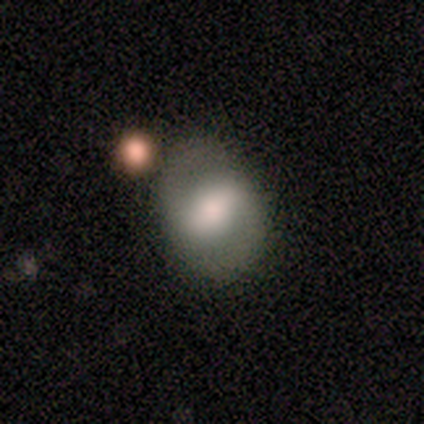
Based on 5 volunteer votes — Smooth or featured?
  - featured or disk: 60% *
  - smooth: 40%
  - star or artifact: 0%
Edge-on disk?
  - no: 100% *
  - yes: 0%
Bar?
  - weak: 67% *
  - no: 33%
  - strong: 0%
Spiral arms?
  - yes: 67% *
  - no: 33%
Spiral winding?
  - medium: 50% * (tied)
  - loose: 50% * (tied)
  - tight: 0%
Spiral arm count?
  - 2: 100% *
  - 1: 0%
  - 3: 0%
  - 4: 0%
  - more than 4: 0%
  - can't tell: 0%
Bulge size?
  - large: 33% * (tied)
  - moderate: 33% * (tied)
  - small: 33% * (tied)
  - dominant: 0%
  - none: 0%
Merging?
  - none: 80% *
  - major disturbance: 20%
  - minor disturbance: 0%
  - merger: 0%